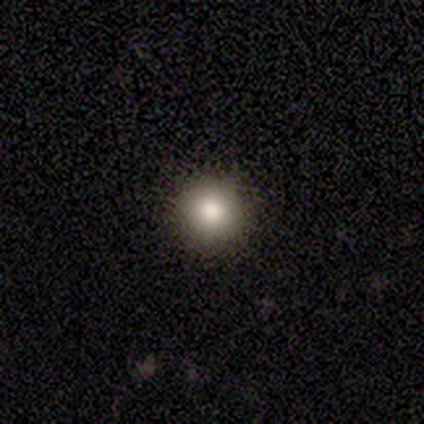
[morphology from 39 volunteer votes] Smooth or featured: smooth — 79% (star or artifact — 13%)
How rounded: round — 100%
Merging: none — 97% (minor disturbance — 3%)